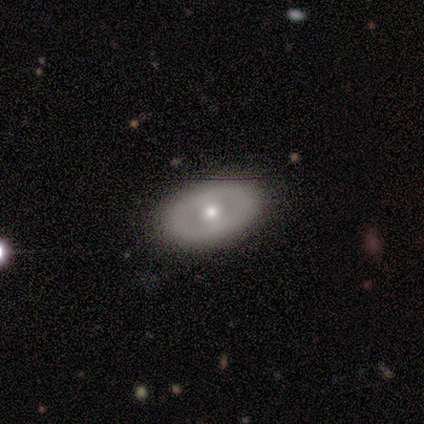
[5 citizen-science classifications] Overall: smooth (60%; featured or disk 40%). How rounded: in between (100%). Merging: none (80%).